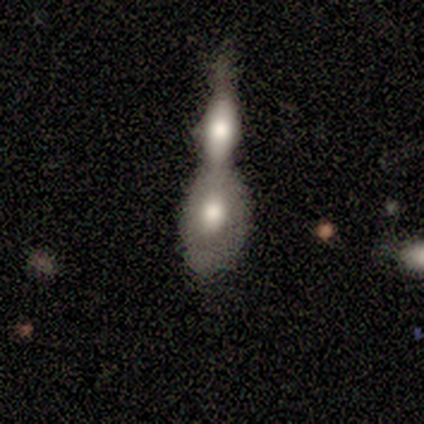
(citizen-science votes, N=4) Smooth or featured: featured or disk — 100%
Edge-on disk: no — 100%
Bar: no — 75% (weak — 25%)
Spiral arms: no — 100%
Bulge size: moderate — 75% (large — 25%)
Merging: merger — 100%